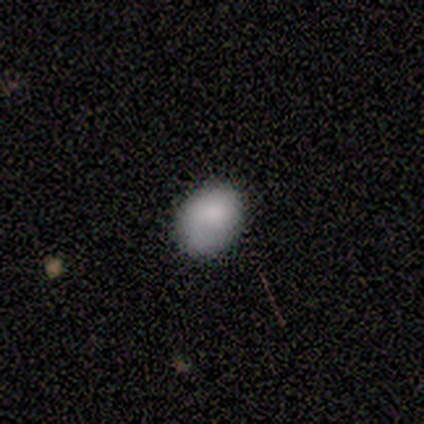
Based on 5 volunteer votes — A smooth galaxy with no disk features (60%) that is in between round and cigar-shaped (100%). Merging: none (40%, tied with minor disturbance).